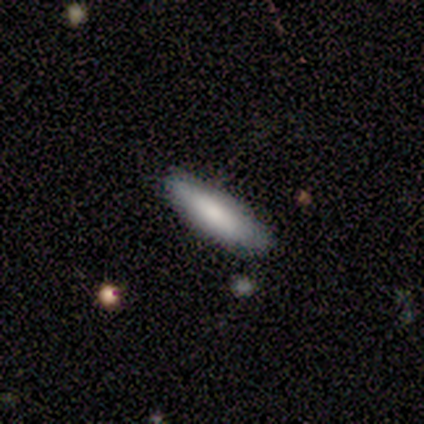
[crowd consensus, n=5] smooth-or-featured: smooth: 80% | featured or disk: 20% | star or artifact: 0%
  how-rounded: cigar-shaped: 75% | in between: 25% | round: 0%
  merging: none: 100% | minor disturbance: 0% | major disturbance: 0% | merger: 0%